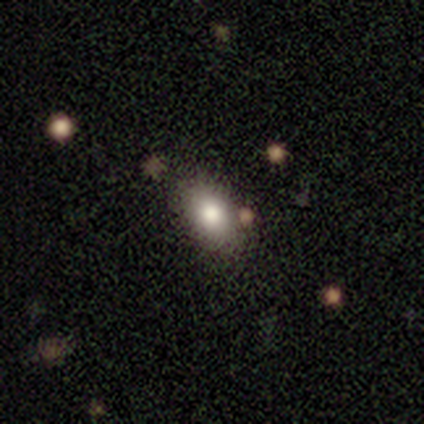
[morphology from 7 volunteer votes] This is likely a smooth galaxy (71%). How rounded: clearly in between (80%). Merging: clearly none (100%).